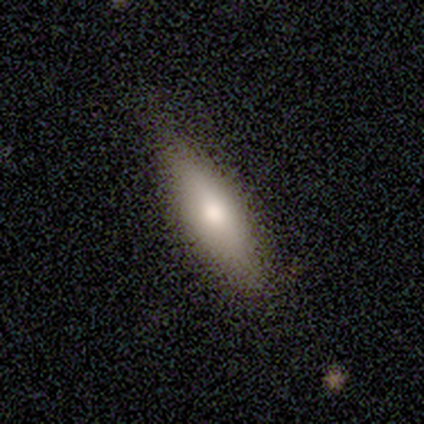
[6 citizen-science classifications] Volunteers were most divided on "how rounded" (2-way tie): in between: 50%, cigar-shaped: 50%, round: 0%. More confident: smooth or featured — smooth (67%); merging — none (67%).